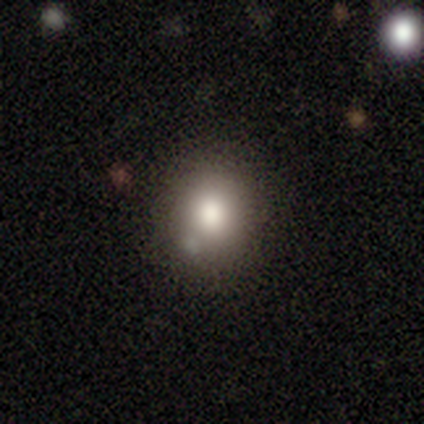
Smooth or featured?
  - smooth: 80% *
  - star or artifact: 20%
  - featured or disk: 0%
How rounded?
  - round: 100% *
  - in between: 0%
  - cigar-shaped: 0%
Merging?
  - none: 75% *
  - minor disturbance: 25%
  - major disturbance: 0%
  - merger: 0%